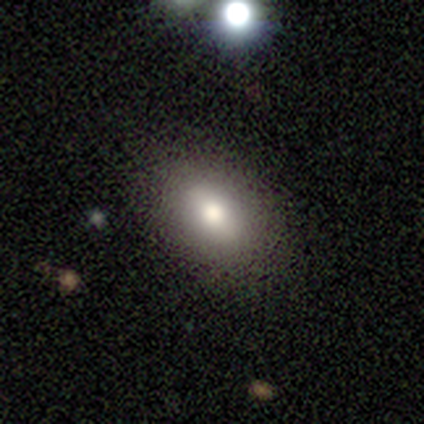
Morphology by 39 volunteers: Smooth or featured? smooth (67%)
How rounded? in between (73%)
Merging? none (84%)